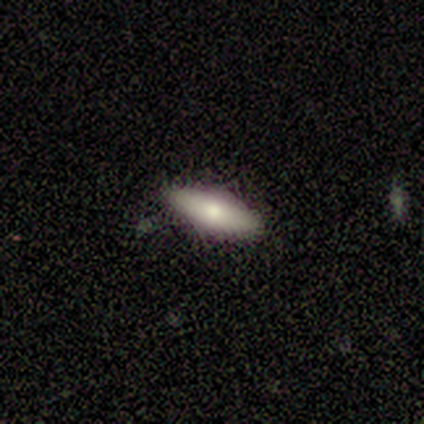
Smooth or featured: smooth — 62% (featured or disk — 38%)
How rounded: in between — 60% (cigar-shaped — 40%)
Merging: none — 100%